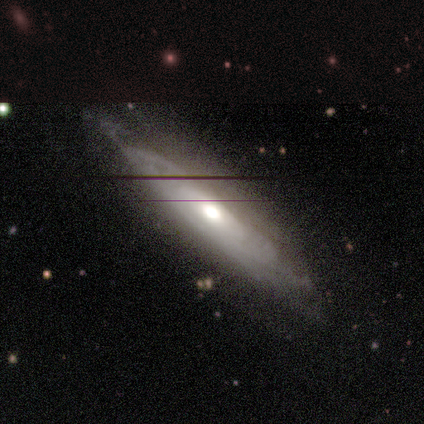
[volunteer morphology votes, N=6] This appears to be a featured or disk galaxy (83%) with no bar (100%), tight (100%) spiral arms (67%) and a moderate central bulge (100%). Merging: none (50%, tied with minor disturbance).